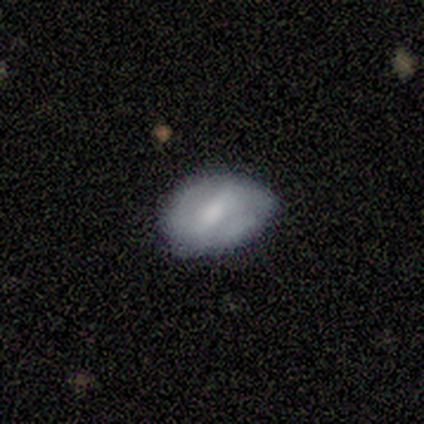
smooth_or_featured: smooth (p=0.50) [tied with: featured or disk p=0.50]
how_rounded: in between (p=1.00)
merging: none (p=0.50) [tied with: minor disturbance p=0.50]